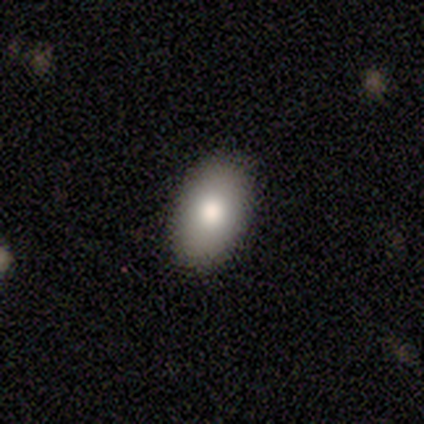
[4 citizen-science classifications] This is likely a smooth galaxy (75%). How rounded: clearly in between (100%). Merging: clearly none (100%).